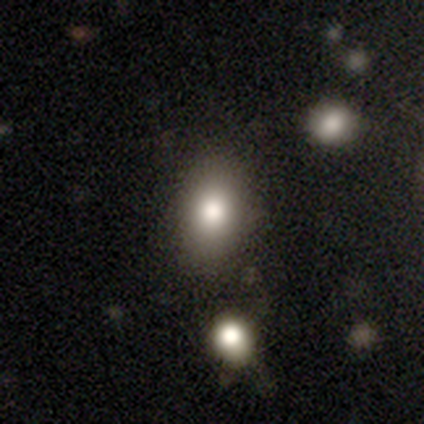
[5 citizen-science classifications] A smooth galaxy with no disk features (100%) that is in between round and cigar-shaped (80%).

Vote fractions:
- Smooth or featured? smooth: 100% / featured or disk: 0% / star or artifact: 0%
- How rounded? in between: 80% / round: 20% / cigar-shaped: 0%
- Merging? none: 80% / minor disturbance: 20% / major disturbance: 0% / merger: 0%